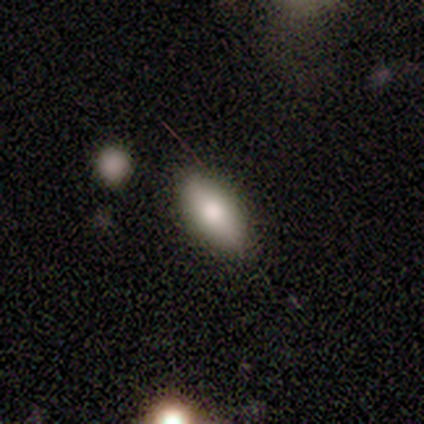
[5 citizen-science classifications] Overall: smooth (60%; featured or disk 40%). How rounded: in between (100%). Merging: none (100%).